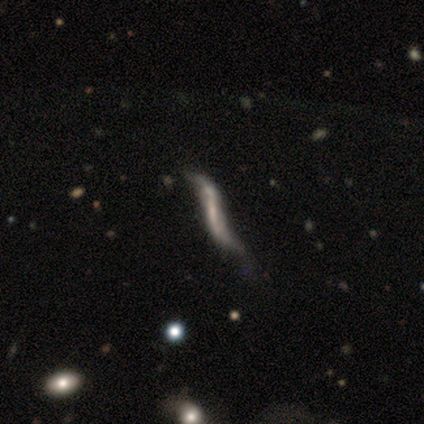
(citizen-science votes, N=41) Smooth or featured? featured or disk (71%)
Edge-on disk? no (52%)
Bar? strong (40%)
Spiral arms? yes (87%)
Spiral winding? loose (100%)
Spiral arm count? 2 (92%)
Bulge size? none (60%)
Merging? major disturbance (48%)